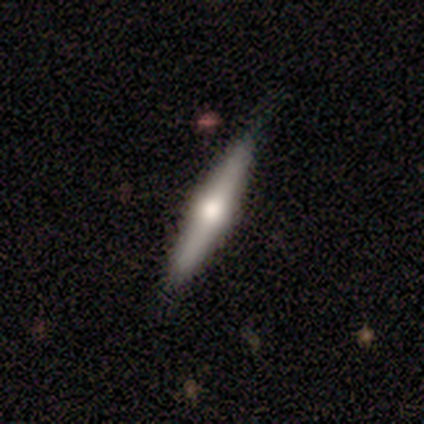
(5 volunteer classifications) featured or disk 80%, smooth 20%, star or artifact 0%. Down the decision tree: edge-on disk — yes (100%); edge-on bulge — rounded (100%); merging — none (100%).